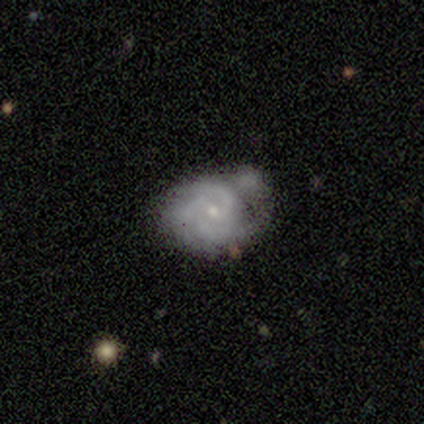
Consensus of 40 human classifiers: A featured or disk galaxy (92%) with a weak bar (49%), 3 (74%) tight (71%) spiral arms (97%) and a small central bulge (80%). Merging: none (33%).